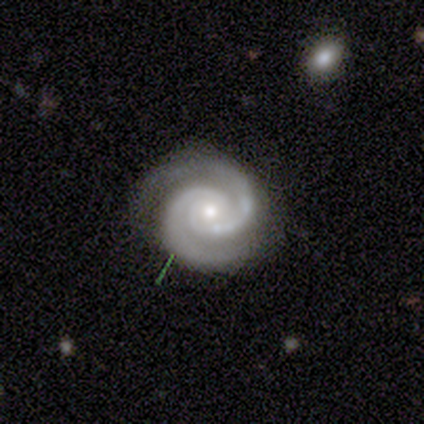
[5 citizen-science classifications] Morphology: type=featured or disk (100%); edge-on=no (100%); bar=no (100%); spiral arms=yes (100%); winding=tight (100%); arm count=2 (80%); bulge=small (60%); merging=none (100%).